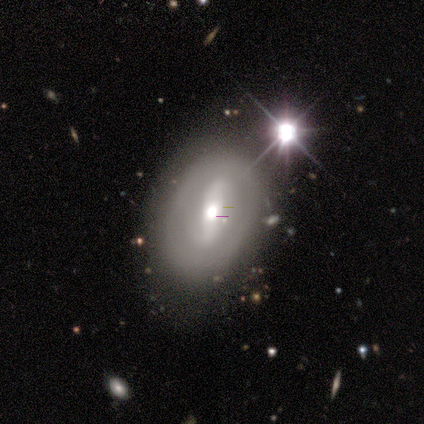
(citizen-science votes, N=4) Smooth or featured? 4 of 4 (100%) said featured or disk. Edge-on disk? 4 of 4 (100%) said no. Bar? 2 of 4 (50%) said strong. Spiral arms? 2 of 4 (50%, tied with no) said yes. Spiral winding? 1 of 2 (50%, tied with loose) said tight. Spiral arm count? 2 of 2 (100%) said 2. Bulge size? 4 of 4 (100%) said moderate. Merging? 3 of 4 (75%) said none.